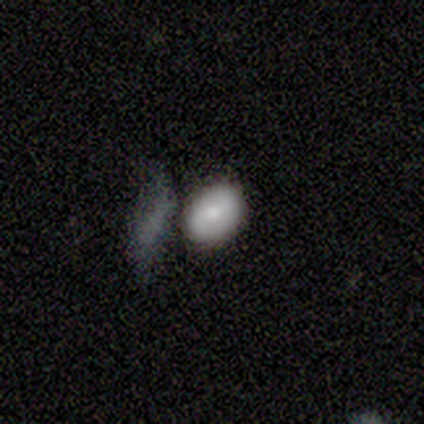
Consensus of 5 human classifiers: Morphology: type=smooth (80%); roundness=in between (100%); merging=none (60%).